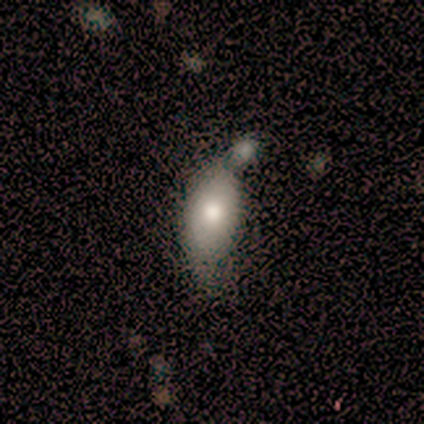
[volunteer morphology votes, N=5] Overall: smooth (60%; featured or disk 20%). How rounded: in between (100%). Merging: merger (50%; minor disturbance 25%).